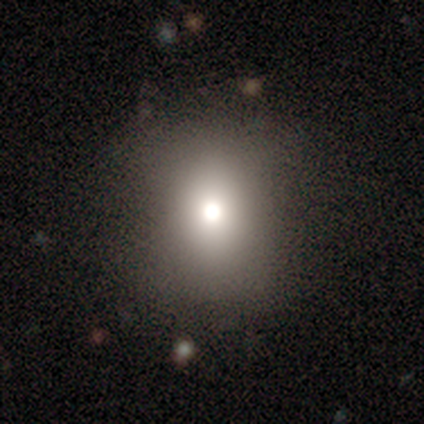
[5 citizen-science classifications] Q: Smooth or featured?
A: smooth (100%)
Q: How rounded?
A: round (60%); runner-up: in between (40%)
Q: Merging?
A: none (60%); runner-up: minor disturbance (40%)